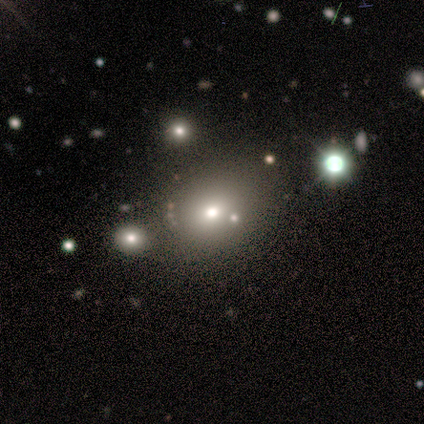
Morphology: type=smooth (75%); roundness=round (100%); merging=none (100%).